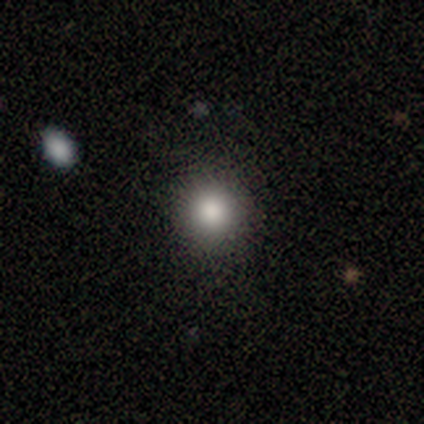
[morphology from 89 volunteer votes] This appears to be a smooth galaxy with no disk features (73%) that is round (95%). Merging: none (96%).